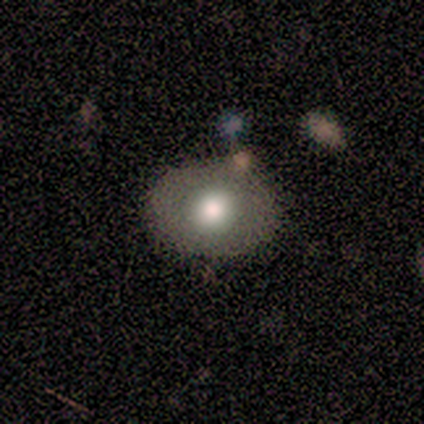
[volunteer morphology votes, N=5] smooth_or_featured: smooth (p=0.80) [alt: star or artifact p=0.20]
how_rounded: in between (p=0.75) [alt: round p=0.25]
merging: none (p=0.50) [alt: minor disturbance p=0.25]